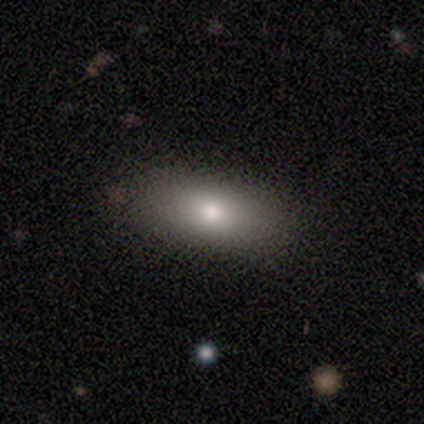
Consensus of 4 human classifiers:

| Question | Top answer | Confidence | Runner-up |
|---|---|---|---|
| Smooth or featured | smooth | 100% | — |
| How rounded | in between | 75% | cigar-shaped (25%) |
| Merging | none | 100% | — |